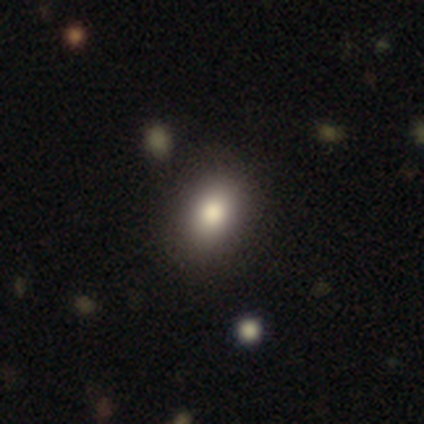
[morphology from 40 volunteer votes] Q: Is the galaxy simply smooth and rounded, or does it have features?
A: smooth — 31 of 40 (78%).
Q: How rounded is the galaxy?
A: in between — 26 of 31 (84%).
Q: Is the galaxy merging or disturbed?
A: none — 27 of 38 (71%).